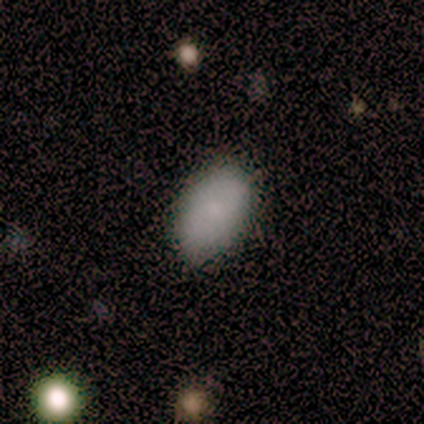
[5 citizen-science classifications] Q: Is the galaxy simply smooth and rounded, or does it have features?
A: smooth — 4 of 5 (80%).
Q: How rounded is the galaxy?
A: in between — 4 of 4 (100%).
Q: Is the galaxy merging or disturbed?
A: none — 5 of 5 (100%).